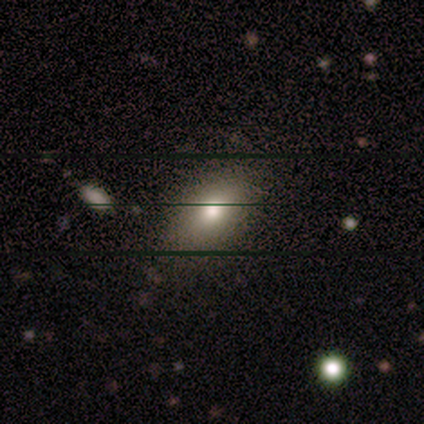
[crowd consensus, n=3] A smooth galaxy with no disk features (67%) that is in between round and cigar-shaped (100%).

Vote fractions:
- Smooth or featured? smooth: 67% / featured or disk: 33% / star or artifact: 0%
- How rounded? in between: 100% / round: 0% / cigar-shaped: 0%
- Merging? none: 100% / minor disturbance: 0% / major disturbance: 0% / merger: 0%